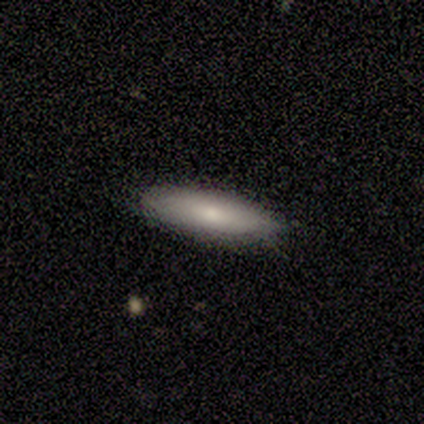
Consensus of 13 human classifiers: Smooth or featured: smooth — 85% (featured or disk — 15%)
How rounded: cigar-shaped — 82% (in between — 18%)
Merging: none — 100%